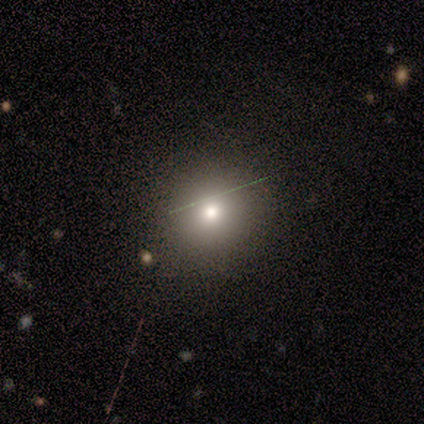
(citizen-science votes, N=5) smooth_or_featured: smooth (p=0.80) [alt: star or artifact p=0.20]
how_rounded: round (p=1.00)
merging: none (p=0.75) [alt: major disturbance p=0.25]